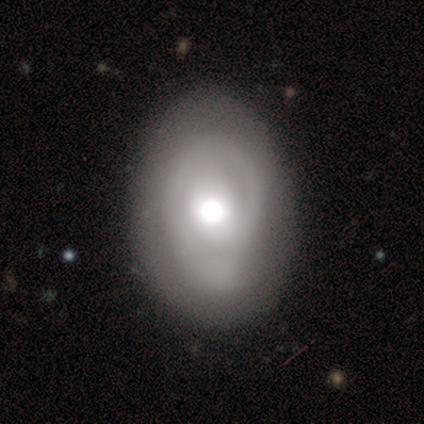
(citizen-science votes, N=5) smooth-or-featured: featured or disk: 60% | smooth: 40% | star or artifact: 0%
  disk-edge-on: no: 100% | yes: 0%
    bar: no: 67% | weak: 33% | strong: 0%
    has-spiral-arms: yes: 67% | no: 33%
      spiral-winding: tight: 50% (tied) | loose: 50% (tied) | medium: 0%
      spiral-arm-count: 1: 50% (tied) | can't tell: 50% (tied) | 2: 0% | 3: 0% | 4: 0% | more than 4: 0%
    bulge-size: moderate: 100% | dominant: 0% | large: 0% | small: 0% | none: 0%
  merging: none: 100% | minor disturbance: 0% | major disturbance: 0% | merger: 0%